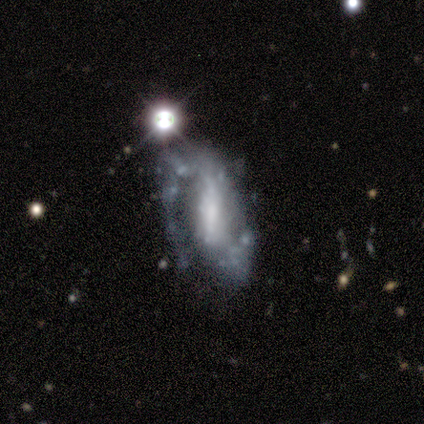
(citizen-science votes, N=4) Overall: featured or disk (100%). Edge-on disk: no (100%). Bar: strong (50%, tied with weak). Spiral arms: yes (100%). Spiral arm count: 1 (50%, tied with 2). Spiral winding: tight (50%; medium 25%). Bulge size: none (50%; moderate 25%). Merging: none (50%; minor disturbance 25%).